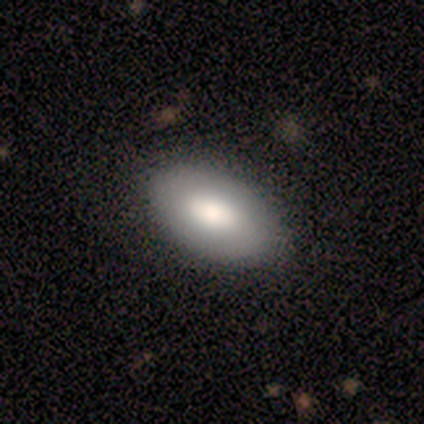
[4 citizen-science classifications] Consensus on every question: smooth or featured — smooth (100%); how rounded — in between (100%); merging — none (100%).